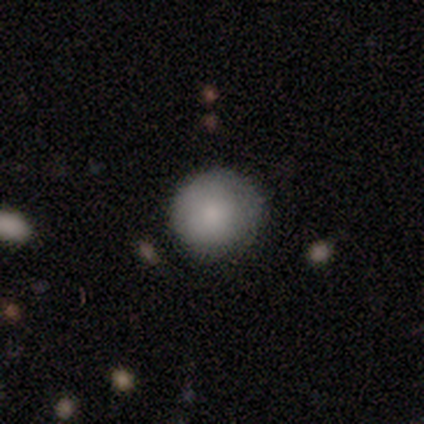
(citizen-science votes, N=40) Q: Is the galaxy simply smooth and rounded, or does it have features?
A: smooth — 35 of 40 (88%).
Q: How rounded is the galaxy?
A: round — 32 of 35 (91%).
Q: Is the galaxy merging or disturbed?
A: none — 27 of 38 (71%).